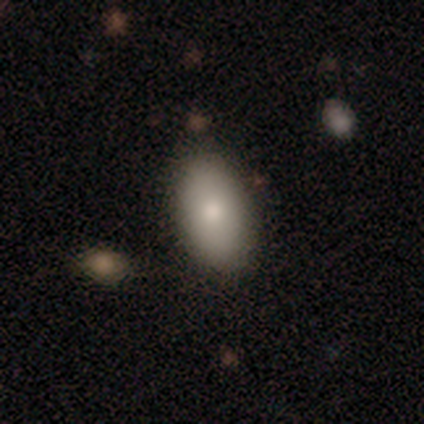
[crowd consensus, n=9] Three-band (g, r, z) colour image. It shows a smooth galaxy with no disk features (67%) that is in between round and cigar-shaped (83%). Merging: none (89%).